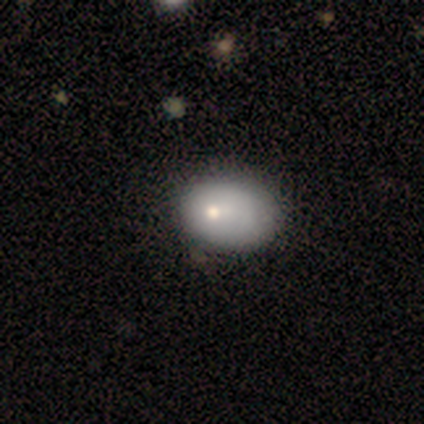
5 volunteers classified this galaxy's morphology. Smooth or featured: smooth — 80% (featured or disk — 20%)
How rounded: in between — 100%
Merging: minor disturbance — 60% (none — 40%)